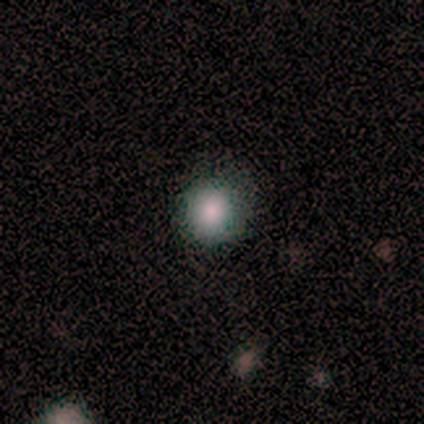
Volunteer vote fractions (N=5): Smooth or featured?
  - smooth: 60% *
  - featured or disk: 20%
  - star or artifact: 20%
How rounded?
  - round: 100% *
  - in between: 0%
  - cigar-shaped: 0%
Merging?
  - none: 100% *
  - minor disturbance: 0%
  - major disturbance: 0%
  - merger: 0%